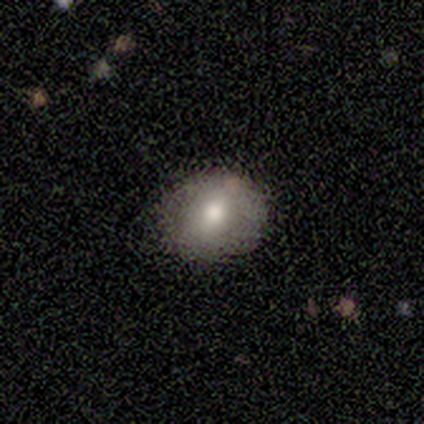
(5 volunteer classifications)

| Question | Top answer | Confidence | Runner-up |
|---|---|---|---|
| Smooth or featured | smooth | 80% | star or artifact (20%) |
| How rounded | round | 100% | — |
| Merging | none | 75% | minor disturbance (25%) |